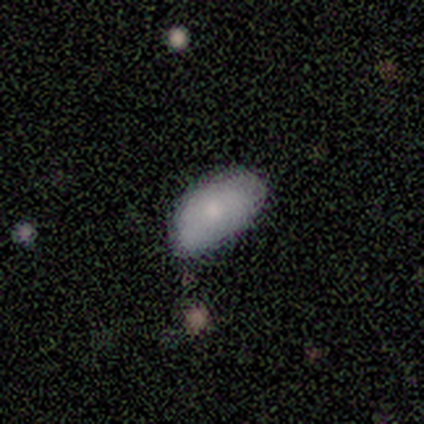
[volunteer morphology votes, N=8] Smooth or featured? smooth (100%)
How rounded? in between (100%)
Merging? none (50%, tied with minor disturbance)